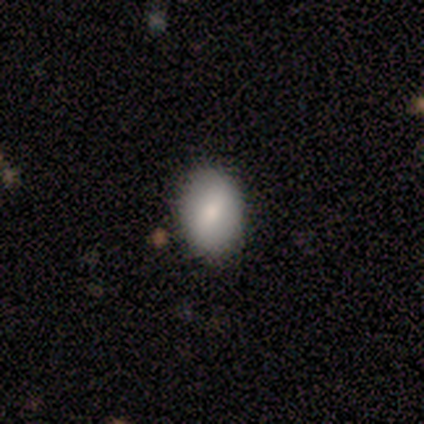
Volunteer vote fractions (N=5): Morphology: type=smooth (80%); roundness=in between (100%); merging=none (100%).